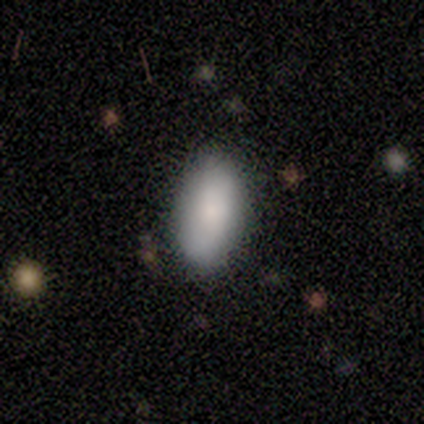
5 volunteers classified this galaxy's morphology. Smooth or featured: smooth — 80% (star or artifact — 20%)
How rounded: in between — 100%
Merging: none — 75% (minor disturbance — 25%)